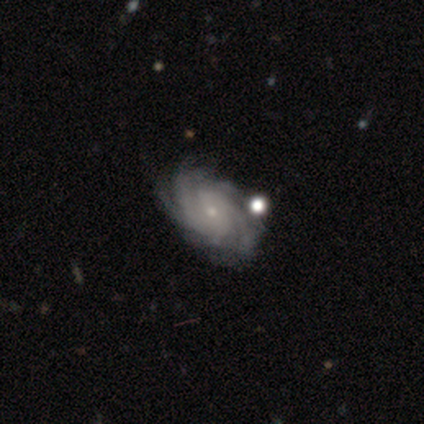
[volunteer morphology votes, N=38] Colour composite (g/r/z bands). It shows a featured or disk galaxy (87%) with no bar (64%), 4 (41%) tight (62%) spiral arms (97%) and a small central bulge (79%). Merging: none (61%).